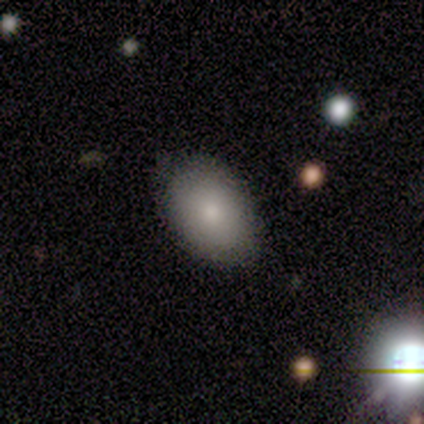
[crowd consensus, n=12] Smooth or featured? 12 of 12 (100%) said smooth. How rounded? 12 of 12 (100%) said in between. Merging? 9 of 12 (75%) said none.